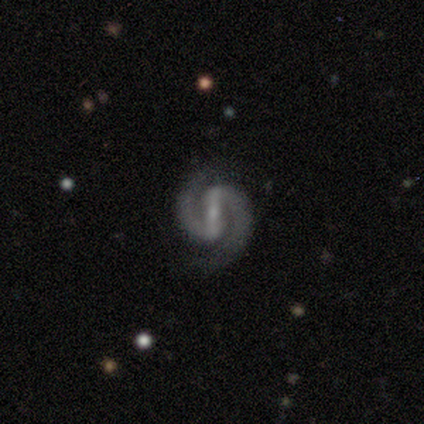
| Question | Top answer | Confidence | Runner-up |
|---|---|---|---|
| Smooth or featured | featured or disk | 100% | — |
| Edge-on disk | no | 100% | — |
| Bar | strong | 100% | — |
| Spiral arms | yes | 88% | no (12%) |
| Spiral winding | medium | 57% | tight (43%) |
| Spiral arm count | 2 | 100% | — |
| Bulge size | small | 88% | moderate (12%) |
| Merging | none | 50% | tied: minor disturbance (50%) |